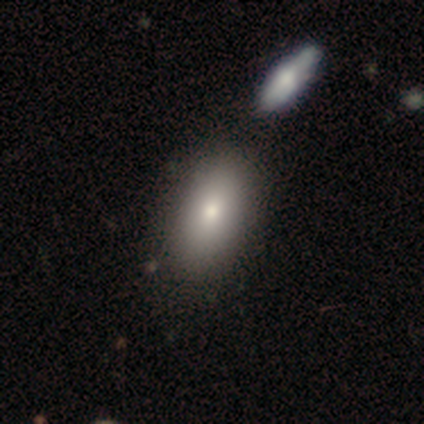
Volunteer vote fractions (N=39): Morphology: type=smooth (85%); roundness=in between (100%); merging=none (55%).